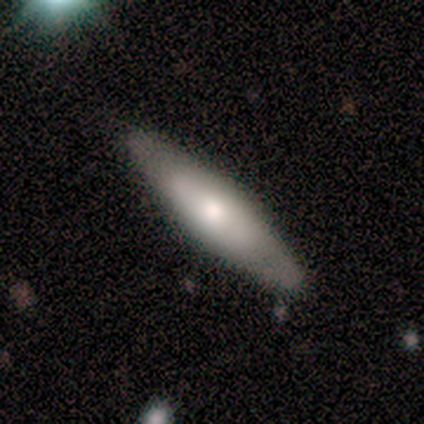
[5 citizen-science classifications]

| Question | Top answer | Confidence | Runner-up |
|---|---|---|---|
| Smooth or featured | featured or disk | 60% | smooth (40%) |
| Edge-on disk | yes | 67% | no (33%) |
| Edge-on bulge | rounded | 100% | — |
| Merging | none | 100% | — |